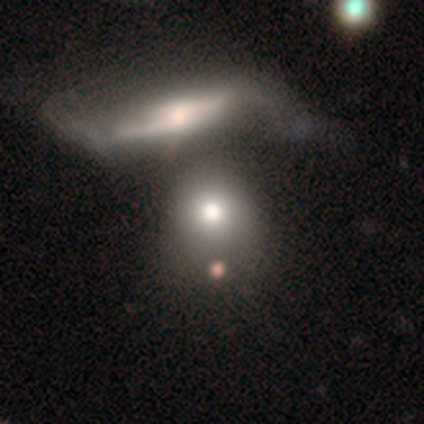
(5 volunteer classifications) Volunteers were most divided on "how rounded": round: 50%, in between: 25%, cigar-shaped: 25%. More confident: smooth or featured — smooth (80%); merging — merger (75%).